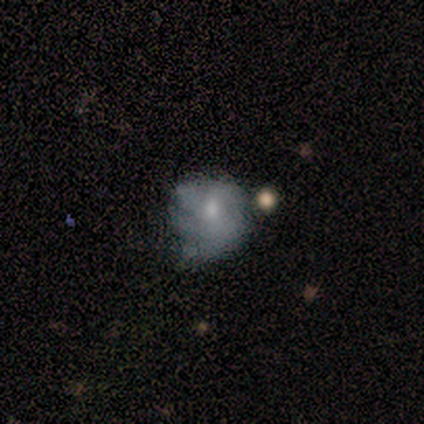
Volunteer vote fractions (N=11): smooth-or-featured: smooth: 55% | featured or disk: 36% | star or artifact: 9%
  how-rounded: in between: 50% | round: 33% | cigar-shaped: 17%
  merging: none: 50% | minor disturbance: 30% | major disturbance: 20% | merger: 0%